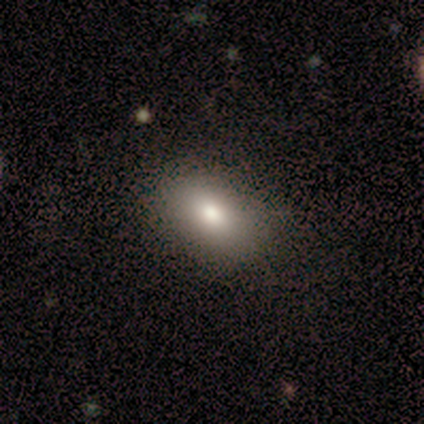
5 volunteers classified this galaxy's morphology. This appears to be a smooth galaxy with no disk features (80%) that is in between round and cigar-shaped (100%). Merging: none (100%).